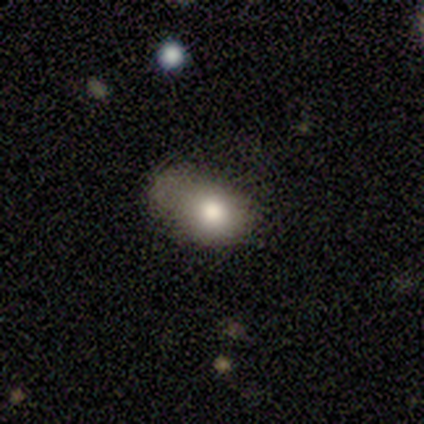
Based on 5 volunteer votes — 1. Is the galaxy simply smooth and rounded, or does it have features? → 60% smooth, 20% featured or disk, 20% star or artifact.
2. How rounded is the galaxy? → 100% in between, 0% round, 0% cigar-shaped.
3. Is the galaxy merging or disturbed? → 100% minor disturbance, 0% none, 0% major disturbance, 0% merger.